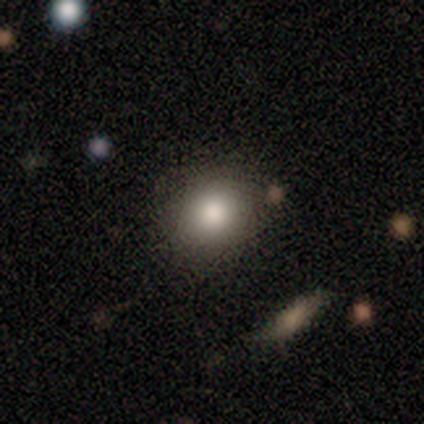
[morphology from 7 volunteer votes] Overall: smooth (71%). How rounded: round (60%; in between 40%). Merging: none (71%).